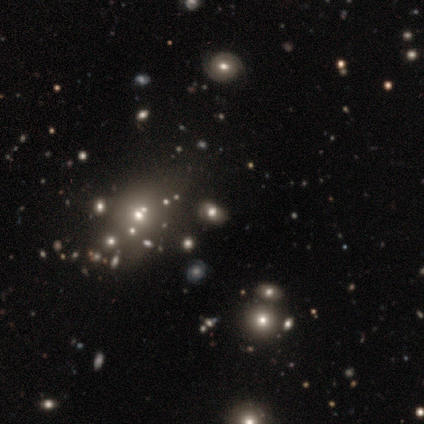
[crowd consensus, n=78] A smooth galaxy with no disk features (46%) that is in between round and cigar-shaped (64%).

Vote fractions:
- Smooth or featured? smooth: 46% / star or artifact: 35% / featured or disk: 19%
- How rounded? in between: 64% / round: 36% / cigar-shaped: 0%
- Merging? none: 29% / merger: 22% / minor disturbance: 4% / major disturbance: 2%